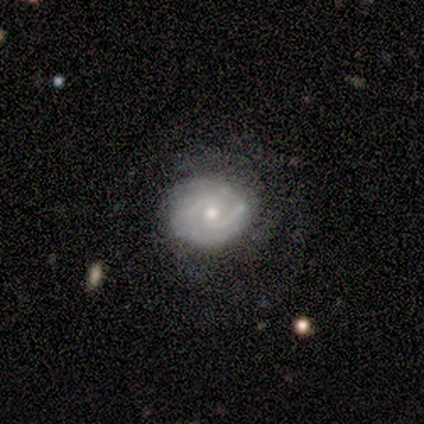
Volunteers were most divided on "merging" (2-way tie): none: 40%, minor disturbance: 40%, major disturbance: 20%, merger: 0%. More confident: smooth or featured — featured or disk (100%); edge-on disk — no (100%); spiral arms — yes (100%); bulge size — moderate (80%); bar — weak (60%); spiral winding — tight (60%); spiral arm count — 2 (60%).